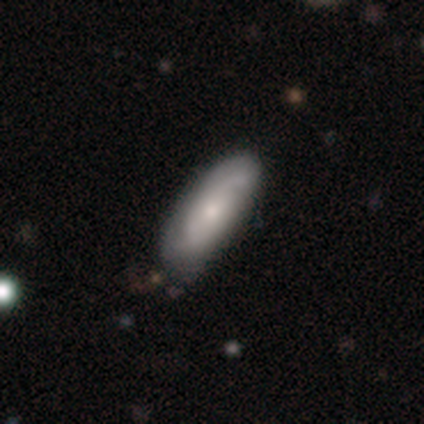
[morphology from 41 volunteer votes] Volunteers were most divided on "spiral winding" (2-way tie): medium: 38%, loose: 38%, tight: 25%. More confident: edge-on disk — no (90%); spiral arms — yes (84%); merging — none (82%); bar — no (79%); spiral arm count — 2 (75%); bulge size — small (68%); smooth or featured — featured or disk (51%).